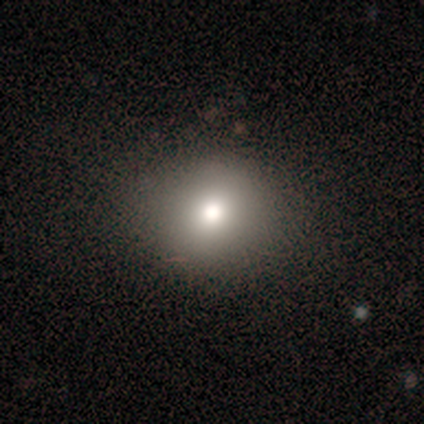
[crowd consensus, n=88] This appears to be a smooth galaxy with no disk features (80%) that is round (80%). Merging: none (90%).